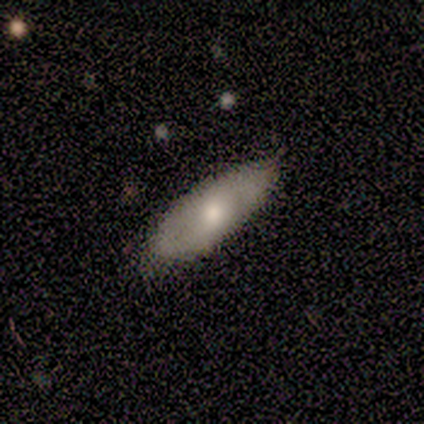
Smooth or featured? featured or disk (80%)
Edge-on disk? no (75%)
Bar? no (67%)
Spiral arms? yes (67%)
Spiral winding? tight (50%, tied with medium)
Spiral arm count? 2 (100%)
Bulge size? moderate (100%)
Merging? none (60%)